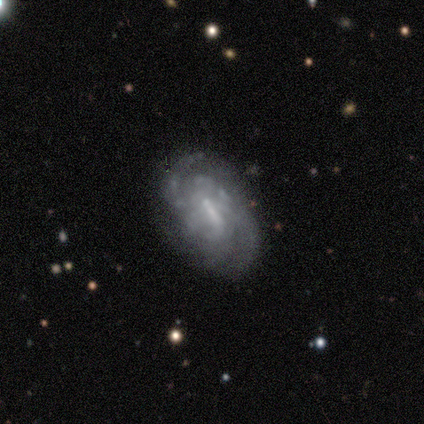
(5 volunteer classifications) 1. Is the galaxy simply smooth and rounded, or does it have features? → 60% featured or disk, 20% smooth, 20% star or artifact.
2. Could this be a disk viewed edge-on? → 100% no, 0% yes.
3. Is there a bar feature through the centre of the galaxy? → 67% strong, 33% weak, 0% no.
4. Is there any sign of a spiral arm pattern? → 100% yes, 0% no.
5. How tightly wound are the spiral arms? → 67% medium, 33% tight, 0% loose.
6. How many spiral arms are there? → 67% 2, 33% can't tell, 0% 1, 0% 3, 0% 4, 0% more than 4.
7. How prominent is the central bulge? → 33% dominant (tied), 33% moderate (tied), 33% none (tied), 0% large, 0% small.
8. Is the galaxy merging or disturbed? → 100% none, 0% minor disturbance, 0% major disturbance, 0% merger.